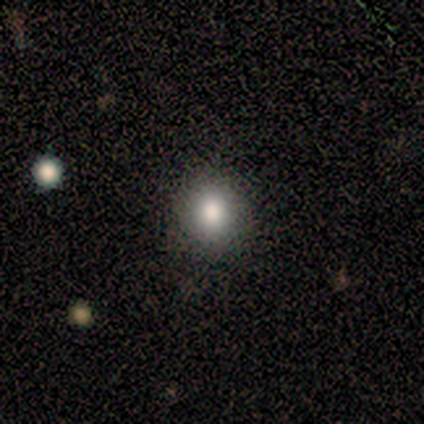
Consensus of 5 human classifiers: This is clearly a smooth galaxy (100%). How rounded: clearly round (100%). Merging: clearly none (100%).